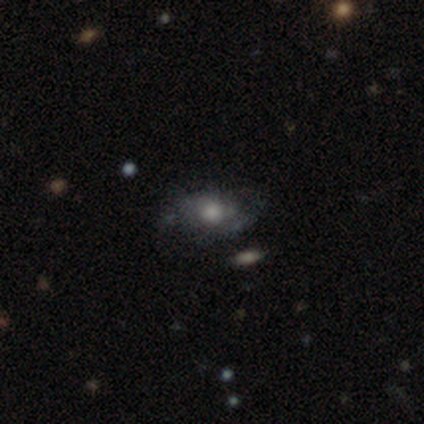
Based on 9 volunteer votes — smooth_or_featured: smooth (p=0.56) [alt: featured or disk p=0.44]
how_rounded: in between (p=0.80) [alt: round p=0.20]
merging: none (p=0.67) [alt: major disturbance p=0.33]